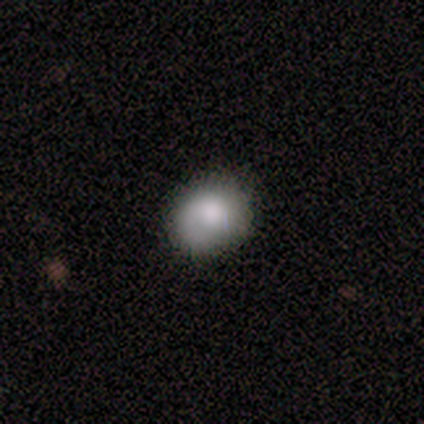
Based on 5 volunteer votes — smooth-or-featured: smooth: 60% | featured or disk: 20% | star or artifact: 20%
  how-rounded: in between: 67% | round: 33% | cigar-shaped: 0%
  merging: none: 50% (tied) | minor disturbance: 50% (tied) | major disturbance: 0% | merger: 0%